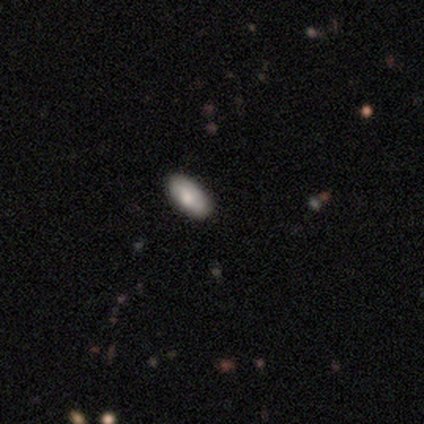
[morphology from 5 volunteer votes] A smooth galaxy with no disk features (80%) that is in between round and cigar-shaped (100%).

Vote fractions:
- Smooth or featured? smooth: 80% / star or artifact: 20% / featured or disk: 0%
- How rounded? in between: 100% / round: 0% / cigar-shaped: 0%
- Merging? none: 100% / minor disturbance: 0% / major disturbance: 0% / merger: 0%